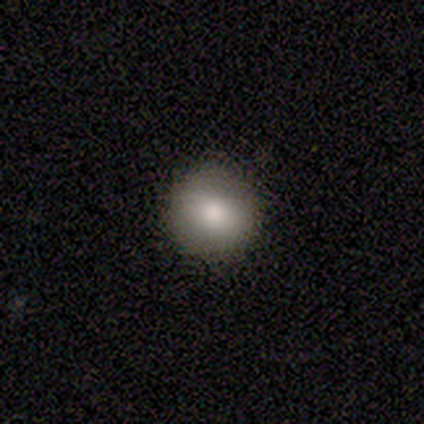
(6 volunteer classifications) A smooth galaxy with no disk features (67%) that is round (75%). Merging: none (100%).